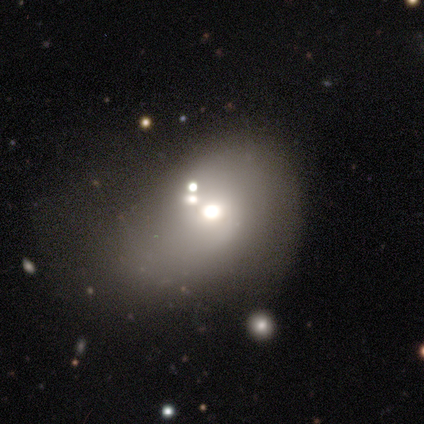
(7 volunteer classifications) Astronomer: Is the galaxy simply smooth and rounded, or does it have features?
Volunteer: smooth — 57%.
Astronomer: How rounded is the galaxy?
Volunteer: in between — 100%.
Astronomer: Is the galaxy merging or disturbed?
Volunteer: minor disturbance — 50%, tied with major disturbance at 50%.